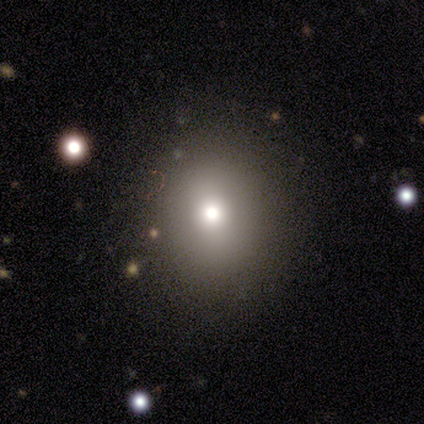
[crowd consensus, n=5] smooth 100%, featured or disk 0%, star or artifact 0%. Down the decision tree: how rounded — round (60%); merging — none (100%).